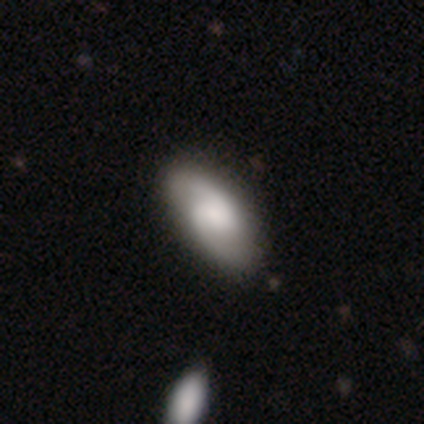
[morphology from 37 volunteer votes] This appears to be a featured or disk galaxy (62%) with a weak bar (48%, tied with no), 2 (95%) medium (57%) spiral arms (100%) and a moderate central bulge (29%). Merging: none (57%).